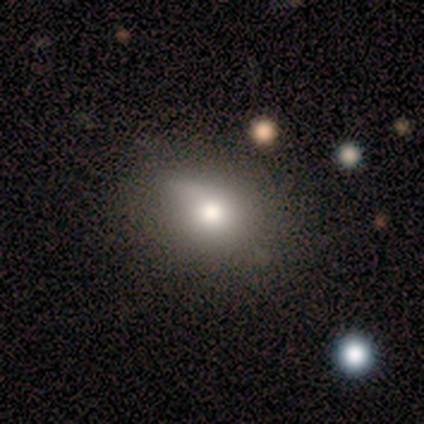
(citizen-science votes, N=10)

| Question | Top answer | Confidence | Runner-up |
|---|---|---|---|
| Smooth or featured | smooth | 80% | featured or disk (10%) |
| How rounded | in between | 62% | round (25%) |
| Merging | none | 56% | minor disturbance (33%) |